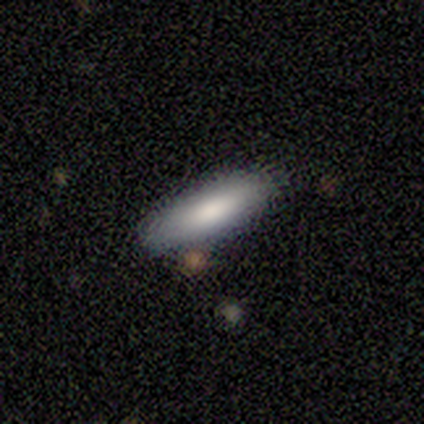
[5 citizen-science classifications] Smooth or featured: smooth — 100%
How rounded: cigar-shaped — 80% (in between — 20%)
Merging: none — 60% (minor disturbance — 40%)